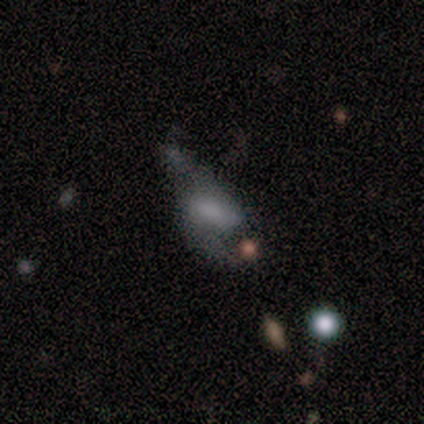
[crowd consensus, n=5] Overall: featured or disk (80%). Edge-on disk: no (100%). Bar: weak (100%). Spiral arms: yes (100%). Spiral arm count: 2 (75%). Spiral winding: loose (75%). Bulge size: none (50%; moderate 25%). Merging: none (40%, tied with minor disturbance).